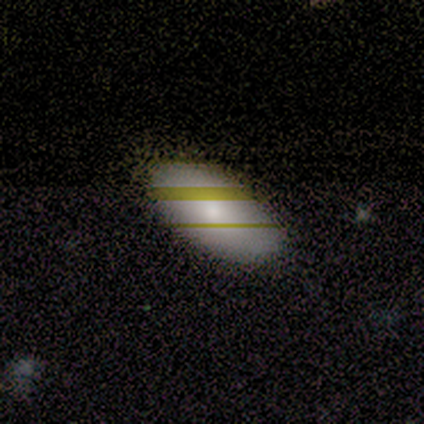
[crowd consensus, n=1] Smooth or featured? 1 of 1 (100%) said smooth. How rounded? 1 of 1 (100%) said in between. Merging? 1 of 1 (100%) said none.